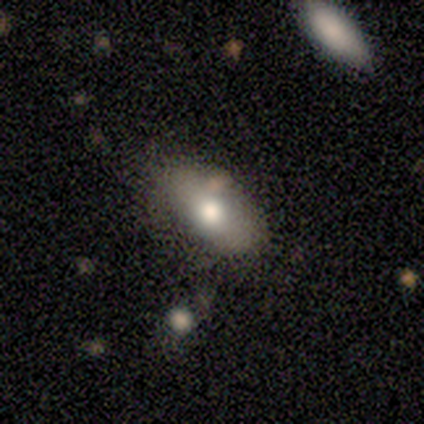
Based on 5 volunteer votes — smooth-or-featured: smooth: 80% | star or artifact: 20% | featured or disk: 0%
  how-rounded: in between: 75% | cigar-shaped: 25% | round: 0%
  merging: none: 50% (tied) | minor disturbance: 50% (tied) | major disturbance: 0% | merger: 0%